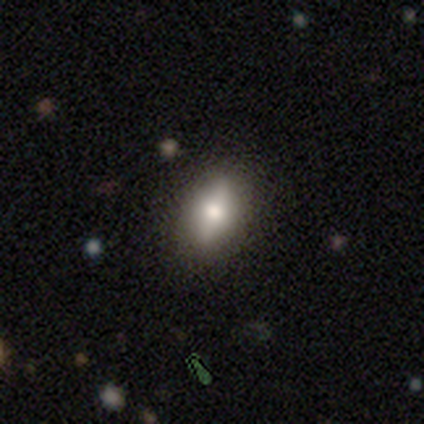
Smooth or featured?
  - smooth: 60% *
  - featured or disk: 40%
  - star or artifact: 0%
How rounded?
  - in between: 100% *
  - round: 0%
  - cigar-shaped: 0%
Merging?
  - none: 80% *
  - minor disturbance: 20%
  - major disturbance: 0%
  - merger: 0%